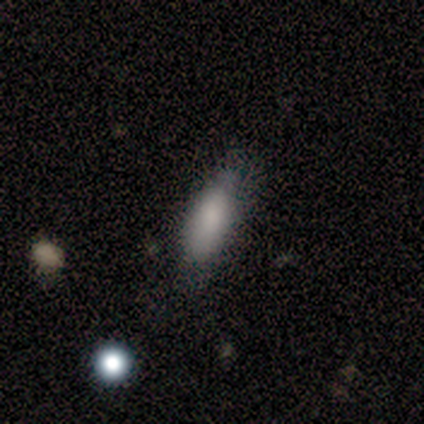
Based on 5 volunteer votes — This appears to be a smooth galaxy with no disk features (60%) that is in between round and cigar-shaped (67%). Merging: none (80%).